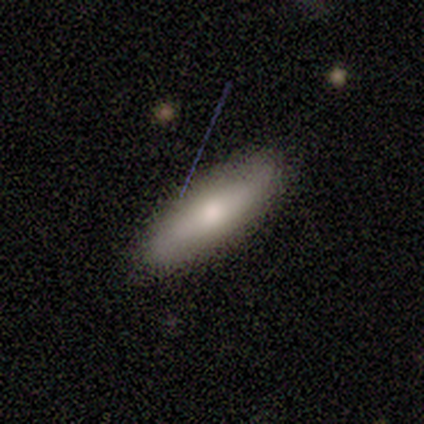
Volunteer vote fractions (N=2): A smooth galaxy with no disk features (100%) that is cigar-shaped (100%). Merging: none (100%).